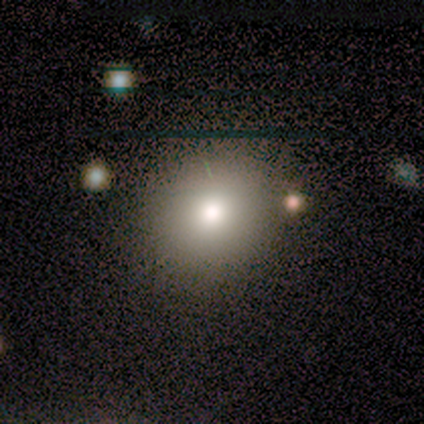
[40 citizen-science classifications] This is likely a smooth galaxy (62%). How rounded: clearly round (88%). Merging: clearly none (87%).